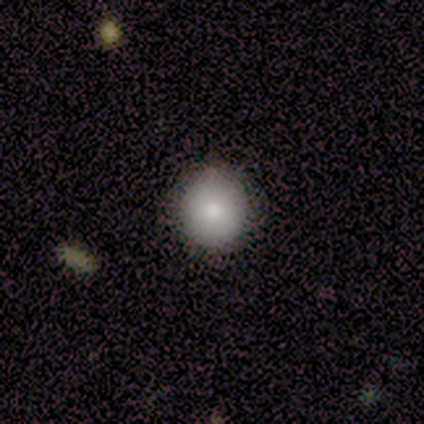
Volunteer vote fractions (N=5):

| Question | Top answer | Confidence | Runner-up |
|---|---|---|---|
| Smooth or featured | smooth | 100% | — |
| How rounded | round | 100% | — |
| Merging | none | 80% | minor disturbance (20%) |